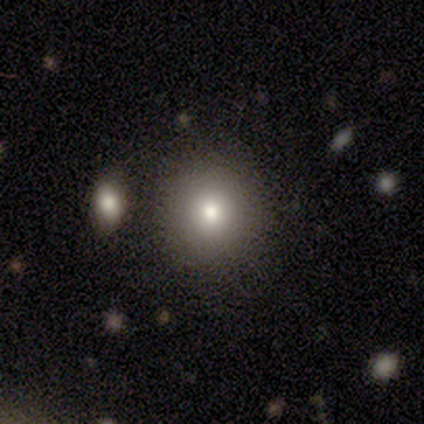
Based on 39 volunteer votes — smooth_or_featured: smooth (p=0.67) [alt: featured or disk p=0.21]
how_rounded: round (p=0.85) [alt: in between p=0.15]
merging: none (p=0.82) [alt: minor disturbance p=0.09]